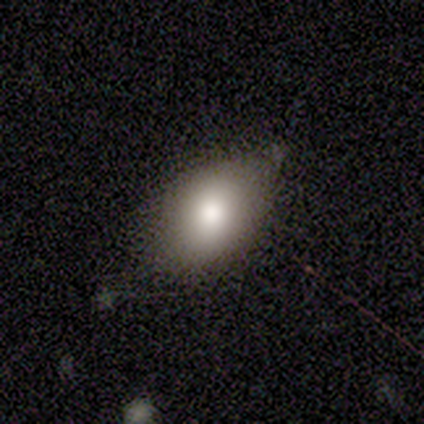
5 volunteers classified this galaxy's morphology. smooth 60%, featured or disk 40%, star or artifact 0%. Down the decision tree: how rounded — in between (67%); merging — none (60%).